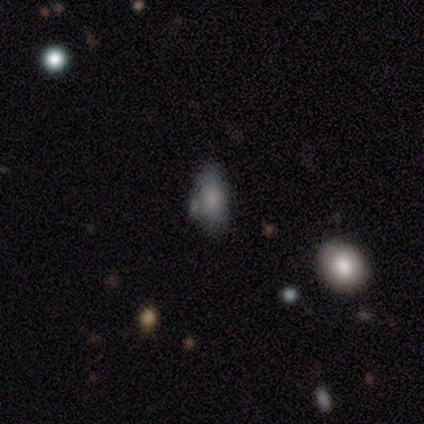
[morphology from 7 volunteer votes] Smooth or featured: smooth — 100%
How rounded: in between — 100%
Merging: none — 86% (minor disturbance — 14%)